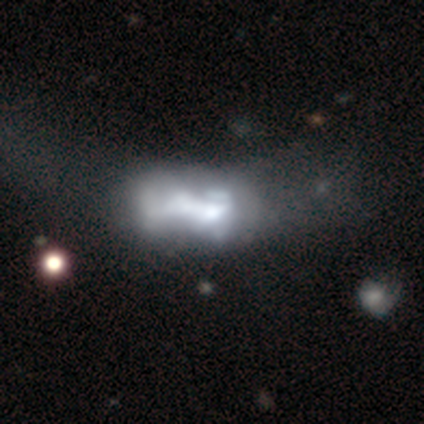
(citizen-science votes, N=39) This appears to be a featured or disk galaxy (74%) with no bar (86%), no spiral arms (93%) and a moderate central bulge (43%). Merging: major disturbance (29%).